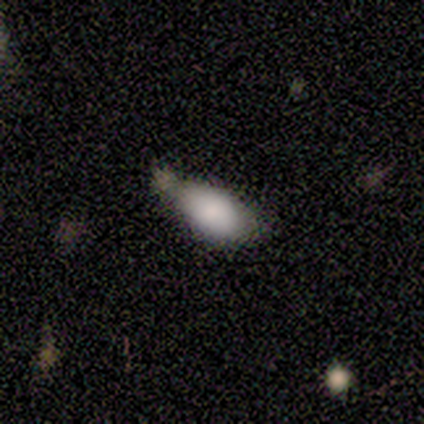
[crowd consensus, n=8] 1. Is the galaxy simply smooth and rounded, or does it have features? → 88% smooth, 12% star or artifact, 0% featured or disk.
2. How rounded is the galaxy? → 57% in between, 29% round, 14% cigar-shaped.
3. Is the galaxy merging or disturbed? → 43% none (tied), 43% minor disturbance (tied), 14% major disturbance, 0% merger.